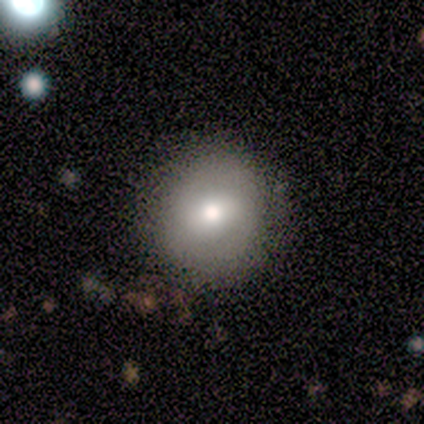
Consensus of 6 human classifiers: Overall: featured or disk (67%; smooth 33%). Edge-on disk: no (100%). Bar: weak (50%, tied with no). Spiral arms: no (100%). Bulge size: moderate (50%, tied with small). Merging: none (100%).